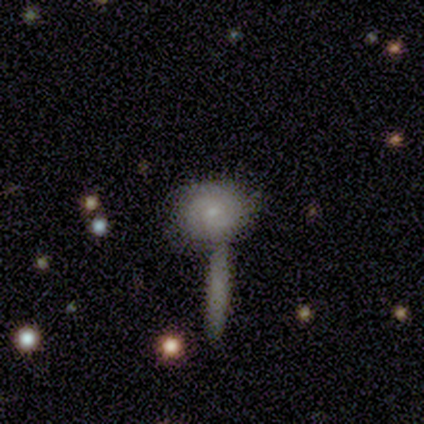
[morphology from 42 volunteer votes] smooth_or_featured: featured or disk (p=0.52) [alt: smooth p=0.45]
disk_edge_on: no (p=1.00)
bar: no (p=0.73) [alt: weak p=0.23]
has_spiral_arms: yes (p=0.77) [alt: no p=0.23]
spiral_winding: tight (p=0.71) [alt: medium p=0.24]
spiral_arm_count: 2 (p=0.65) [alt: can't tell p=0.29]
bulge_size: small (p=0.73) [alt: moderate p=0.23]
merging: merger (p=0.46) [alt: none p=0.29]